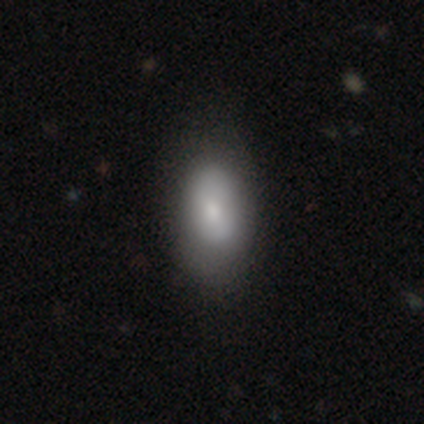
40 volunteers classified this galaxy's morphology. Volunteers were most divided on "merging": none: 58%, minor disturbance: 8%, major disturbance: 3%, merger: 0%. More confident: how rounded — in between (97%); smooth or featured — smooth (80%).